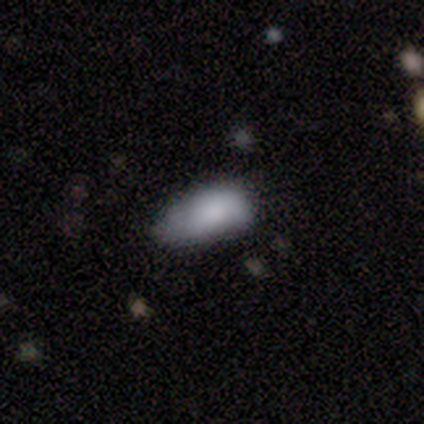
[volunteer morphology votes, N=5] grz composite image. It shows a smooth galaxy with no disk features (80%) that is in between round and cigar-shaped (100%). Merging: none (50%, tied with minor disturbance).